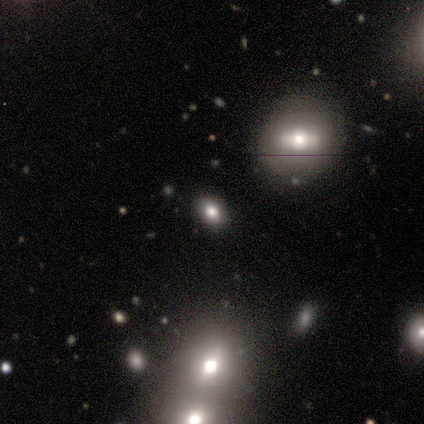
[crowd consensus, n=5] Smooth or featured: smooth — 40% (tied with featured or disk — 40%)
How rounded: in between — 100%
Merging: none — 50% (tied with merger — 50%)